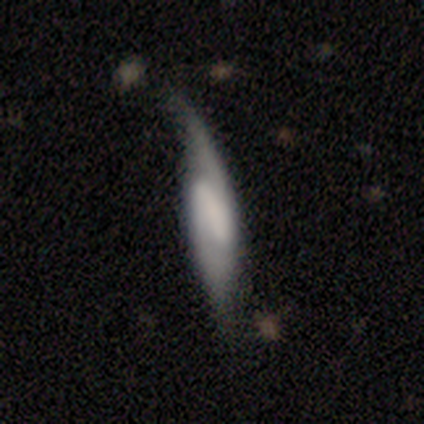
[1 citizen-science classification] A featured or disk galaxy (100%) with a strong bar (100%), 2 (100%) medium (100%) spiral arms (100%) and no central bulge (100%). Merging: minor disturbance (100%).